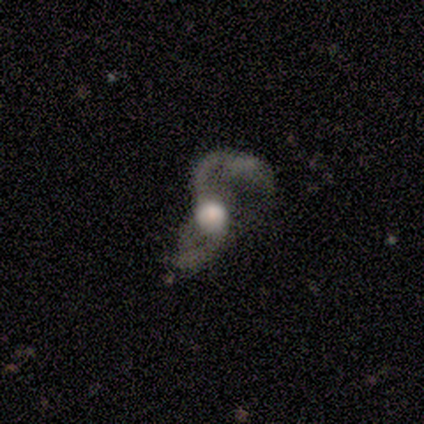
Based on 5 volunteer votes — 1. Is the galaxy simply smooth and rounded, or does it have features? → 60% featured or disk, 20% smooth, 20% star or artifact.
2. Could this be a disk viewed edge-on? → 100% no, 0% yes.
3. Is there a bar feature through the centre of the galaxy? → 67% no, 33% weak, 0% strong.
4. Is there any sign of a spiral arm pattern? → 100% yes, 0% no.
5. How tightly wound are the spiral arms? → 67% loose, 33% medium, 0% tight.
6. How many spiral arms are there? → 67% 1, 33% 2, 0% 3, 0% 4, 0% more than 4, 0% can't tell.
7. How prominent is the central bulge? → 33% large (tied), 33% moderate (tied), 33% none (tied), 0% dominant, 0% small.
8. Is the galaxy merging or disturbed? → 50% major disturbance, 25% none, 25% minor disturbance, 0% merger.